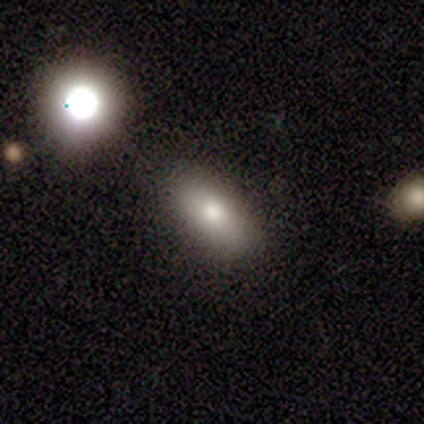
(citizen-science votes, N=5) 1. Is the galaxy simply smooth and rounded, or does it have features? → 60% smooth, 40% star or artifact, 0% featured or disk.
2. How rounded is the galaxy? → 67% cigar-shaped, 33% in between, 0% round.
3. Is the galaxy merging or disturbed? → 100% none, 0% minor disturbance, 0% major disturbance, 0% merger.